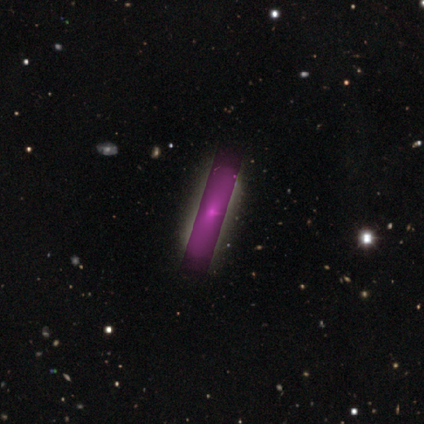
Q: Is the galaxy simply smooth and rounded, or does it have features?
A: featured or disk — 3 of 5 (60%).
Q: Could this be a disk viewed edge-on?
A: yes — 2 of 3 (67%).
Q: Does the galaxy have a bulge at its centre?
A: boxy — 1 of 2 (50%, tied with rounded).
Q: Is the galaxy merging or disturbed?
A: none — 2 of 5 (40%).